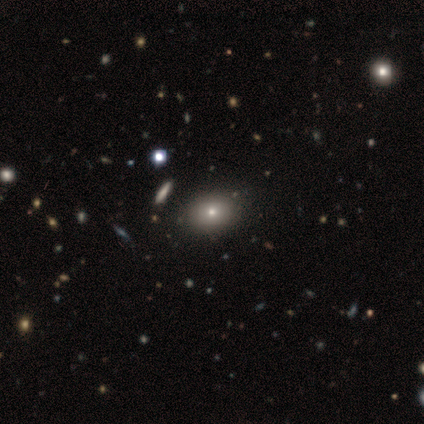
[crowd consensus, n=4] Smooth or featured? 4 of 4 (100%) said smooth. How rounded? 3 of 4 (75%) said in between. Merging? 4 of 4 (100%) said none.